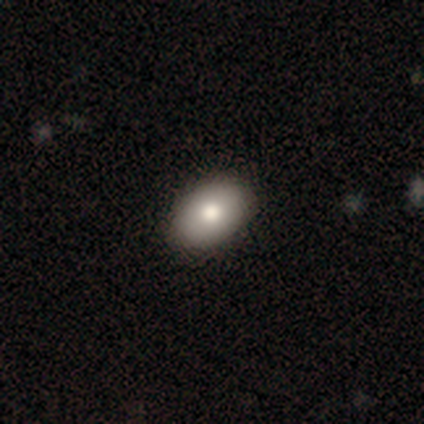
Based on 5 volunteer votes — smooth 80%, star or artifact 20%, featured or disk 0%. Down the decision tree: how rounded — in between (100%); merging — none (100%).